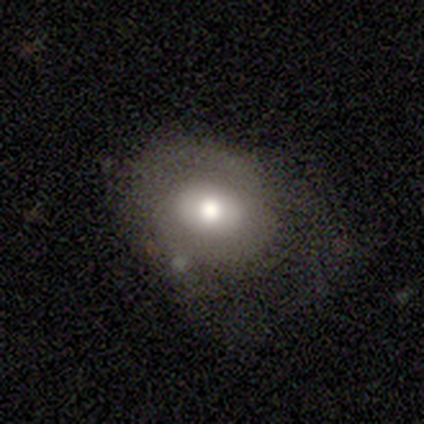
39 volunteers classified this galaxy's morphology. Smooth or featured? 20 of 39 (51%) said smooth. How rounded? 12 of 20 (60%) said round. Merging? 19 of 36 (53%) said none.